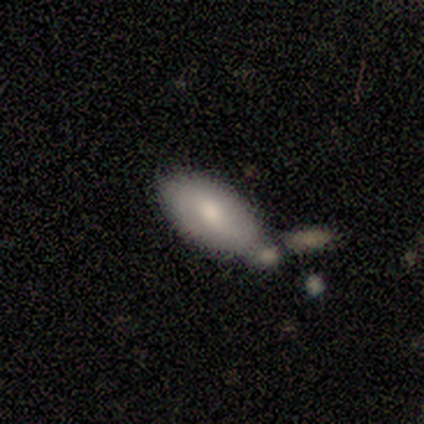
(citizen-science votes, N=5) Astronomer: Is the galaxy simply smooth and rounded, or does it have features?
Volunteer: smooth — 80%.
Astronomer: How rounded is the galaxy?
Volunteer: in between — 75%.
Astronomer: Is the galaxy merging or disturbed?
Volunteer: minor disturbance — 60% (runner-up: merger, 40%).